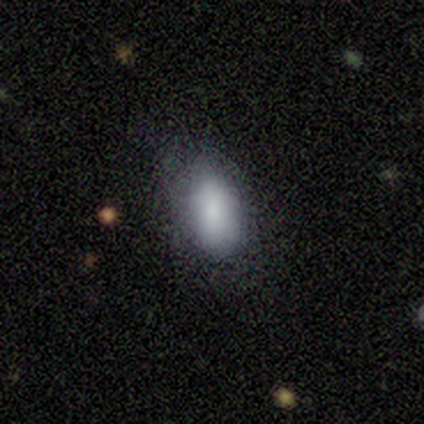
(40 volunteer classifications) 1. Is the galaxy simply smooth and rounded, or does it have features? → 82% smooth, 12% featured or disk, 5% star or artifact.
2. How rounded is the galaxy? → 97% in between, 3% cigar-shaped, 0% round.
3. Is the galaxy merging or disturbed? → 50% none, 42% minor disturbance, 8% major disturbance, 0% merger.